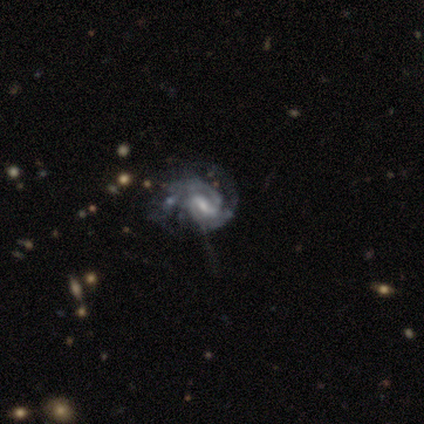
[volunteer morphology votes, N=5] This is clearly a featured or disk galaxy (80%). It is clearly not viewed edge-on (100%). Bar: likely weak (75%). Spiral arm pattern: likely yes (75%). Spiral arm count: likely 2 (67%). Spiral winding: likely medium (67%). Central bulge: likely moderate (75%). Merging: clearly major disturbance (100%).